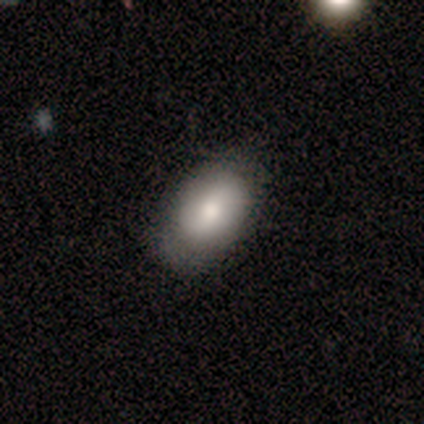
Overall: smooth (80%). How rounded: in between (100%). Merging: none (100%).